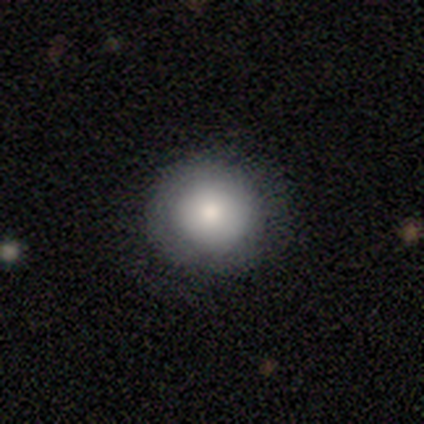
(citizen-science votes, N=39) A smooth galaxy with no disk features (85%) that is round (97%). Merging: none (92%).